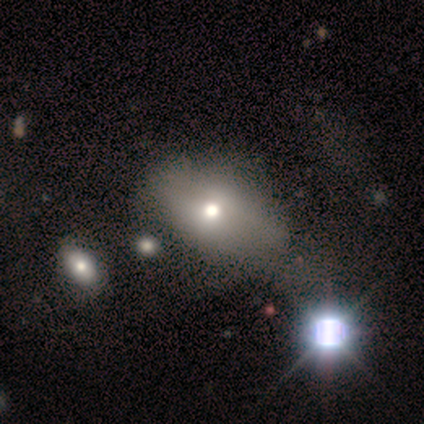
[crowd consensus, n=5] Overall: smooth (60%; star or artifact 40%). How rounded: in between (100%). Merging: none (67%; merger 33%).